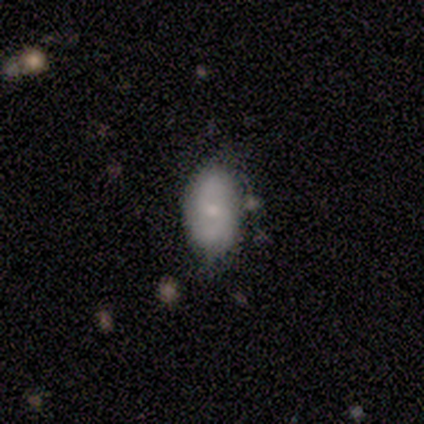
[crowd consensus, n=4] smooth 50% (tied), featured or disk 50% (tied), star or artifact 0%. Down the decision tree: how rounded — in between (100%); merging — none (50%, tied with minor disturbance).